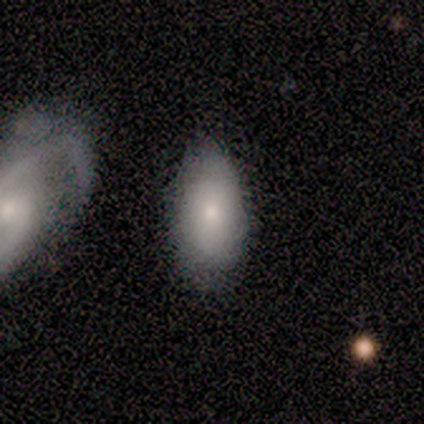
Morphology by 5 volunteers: Smooth or featured: smooth — 40% (tied with featured or disk — 40%)
How rounded: in between — 100%
Merging: none — 50% (minor disturbance — 25%)